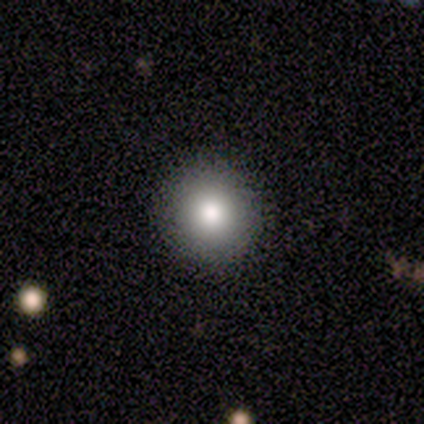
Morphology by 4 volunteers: Volunteers were most divided on "smooth or featured": smooth: 50%, featured or disk: 25%, star or artifact: 25%. More confident: how rounded — round (100%); merging — none (100%).